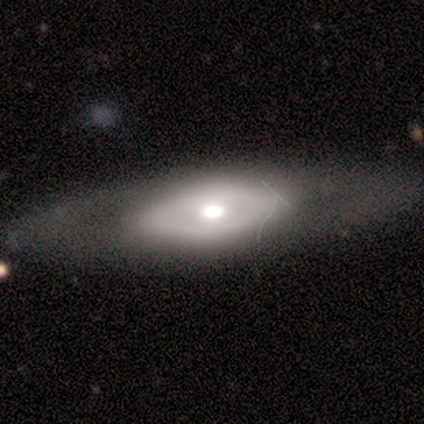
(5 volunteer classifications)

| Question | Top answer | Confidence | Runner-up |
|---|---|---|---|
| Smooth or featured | featured or disk | 80% | smooth (20%) |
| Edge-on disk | no | 100% | — |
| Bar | no | 100% | — |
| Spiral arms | no | 100% | — |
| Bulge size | moderate | 75% | large (25%) |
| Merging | none | 100% | — |